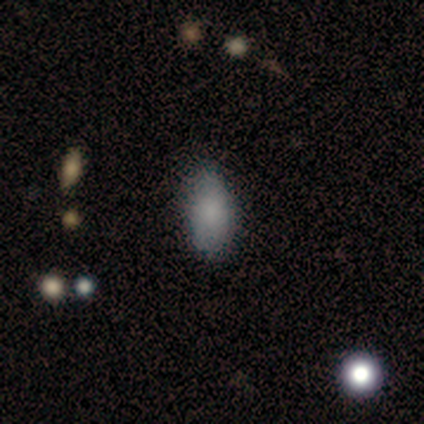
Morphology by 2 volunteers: Smooth or featured? smooth (100%)
How rounded? in between (100%)
Merging? none (100%)